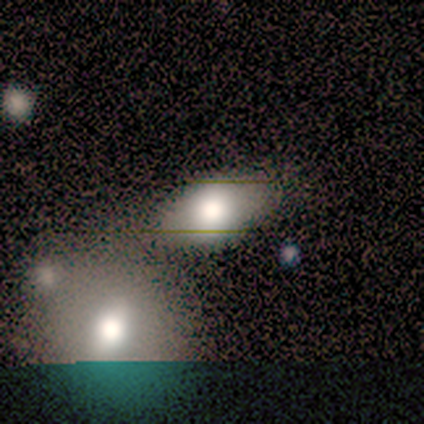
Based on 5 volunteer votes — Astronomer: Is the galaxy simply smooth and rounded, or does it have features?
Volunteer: smooth — 80%.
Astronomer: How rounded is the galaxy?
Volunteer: in between — 100%.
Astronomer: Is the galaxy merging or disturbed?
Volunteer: none — 40% (runner-up: minor disturbance, 20%).